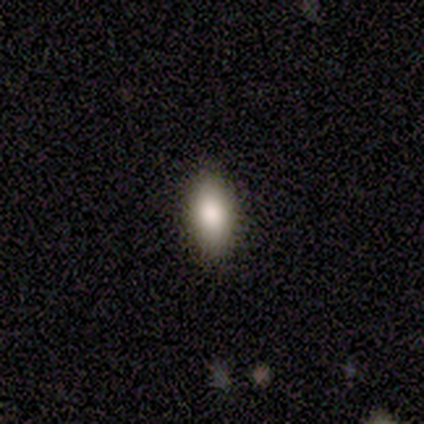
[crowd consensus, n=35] A smooth galaxy with no disk features (89%) that is in between round and cigar-shaped (74%). Merging: none (97%).